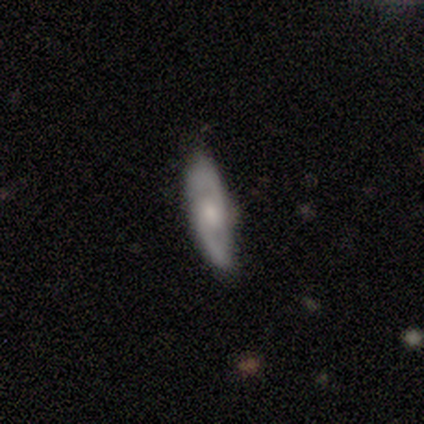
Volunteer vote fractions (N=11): Overall: featured or disk (91%). Edge-on disk: no (90%). Bar: no (67%; weak 33%). Spiral arms: yes (89%). Spiral arm count: 2 (100%). Spiral winding: medium (62%; tight 25%). Bulge size: moderate (56%; small 33%). Merging: none (91%).